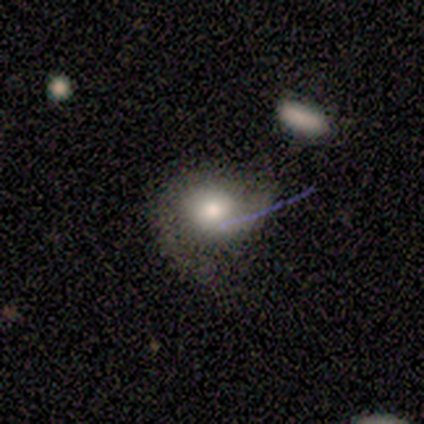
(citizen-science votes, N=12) A smooth galaxy with no disk features (67%) that is round (75%).

Vote fractions:
- Smooth or featured? smooth: 67% / featured or disk: 33% / star or artifact: 0%
- How rounded? round: 75% / in between: 25% / cigar-shaped: 0%
- Merging? none: 75% / minor disturbance: 17% / major disturbance: 8% / merger: 0%